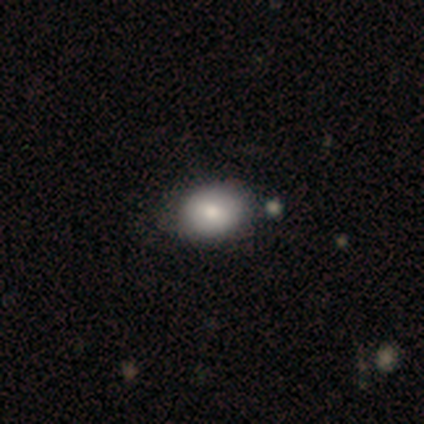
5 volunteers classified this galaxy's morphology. Overall: smooth (60%; star or artifact 40%). How rounded: in between (67%; round 33%). Merging: none (100%).